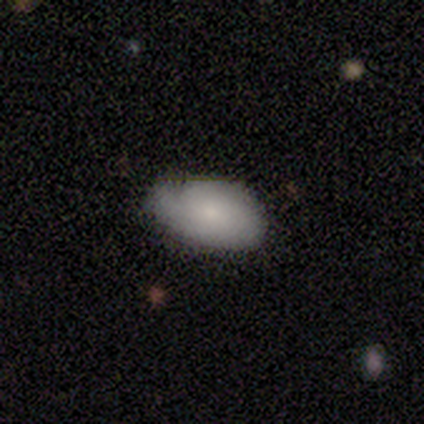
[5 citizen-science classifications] Smooth or featured? smooth (60%)
How rounded? in between (100%)
Merging? none (80%)